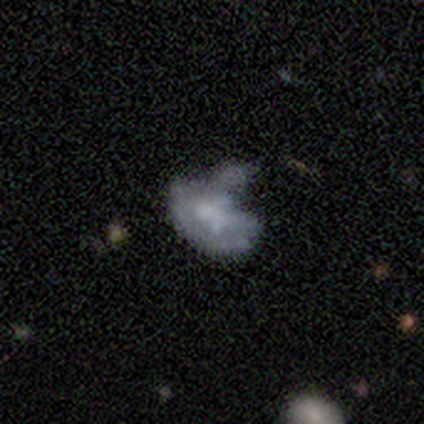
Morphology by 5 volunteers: Overall: featured or disk (100%). Edge-on disk: no (100%). Bar: no (80%). Spiral arms: no (100%). Bulge size: small (40%, tied with none). Merging: none (60%; major disturbance 20%).